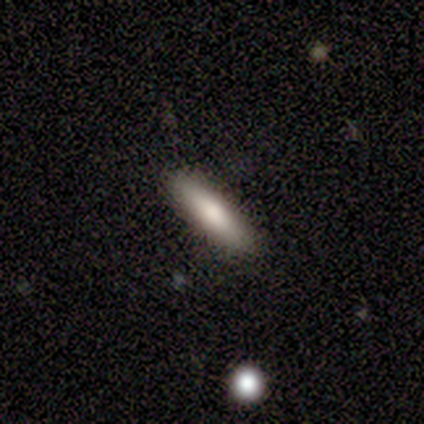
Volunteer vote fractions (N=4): smooth 75%, featured or disk 25%, star or artifact 0%. Down the decision tree: how rounded — cigar-shaped (67%); merging — none (100%).